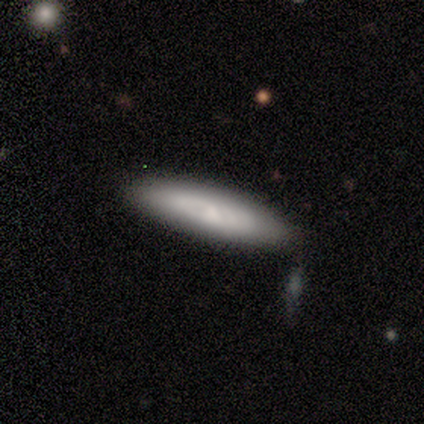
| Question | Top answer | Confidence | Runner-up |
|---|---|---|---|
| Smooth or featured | featured or disk | 60% | smooth (40%) |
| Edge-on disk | yes | 67% | no (33%) |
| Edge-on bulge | none | 50% | tied: rounded (50%) |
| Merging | none | 100% | — |